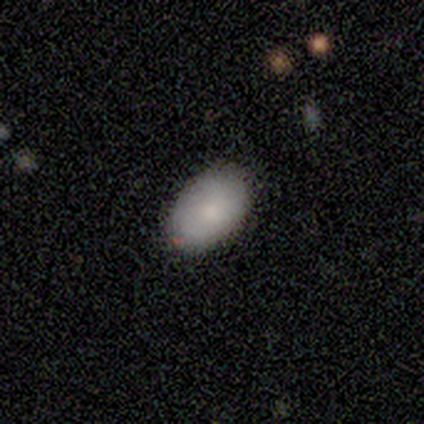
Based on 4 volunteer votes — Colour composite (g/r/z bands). It shows a smooth galaxy with no disk features (75%) that is in between round and cigar-shaped (100%). Merging: none (100%).